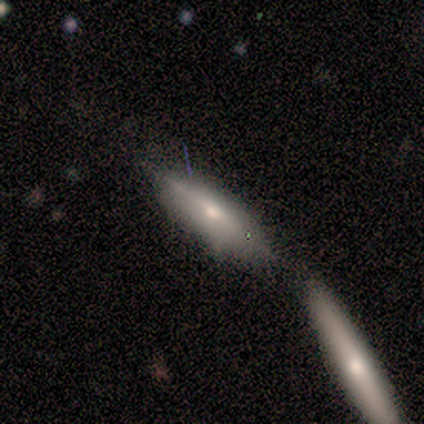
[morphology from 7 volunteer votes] This appears to be a featured or disk galaxy (57%) viewed edge-on (75%) with a rounded central bulge (67%). Merging: none (57%).